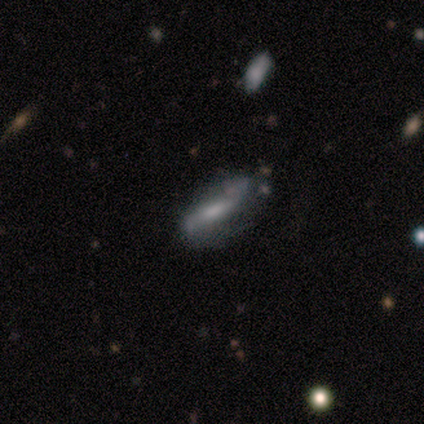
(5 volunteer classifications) smooth-or-featured: smooth: 60% | featured or disk: 40% | star or artifact: 0%
  how-rounded: in between: 67% | cigar-shaped: 33% | round: 0%
  merging: none: 60% | minor disturbance: 40% | major disturbance: 0% | merger: 0%